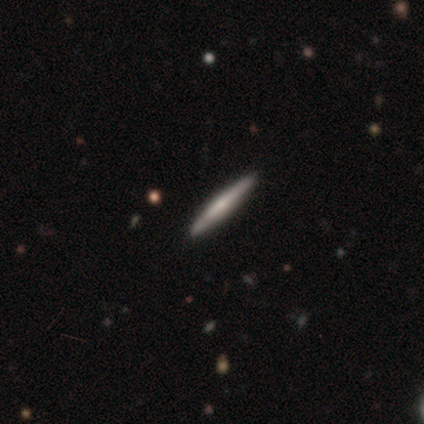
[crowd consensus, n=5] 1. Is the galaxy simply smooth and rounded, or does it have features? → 40% smooth (tied), 40% featured or disk (tied), 20% star or artifact.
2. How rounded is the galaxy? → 100% cigar-shaped, 0% round, 0% in between.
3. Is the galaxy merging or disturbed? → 100% none, 0% minor disturbance, 0% major disturbance, 0% merger.